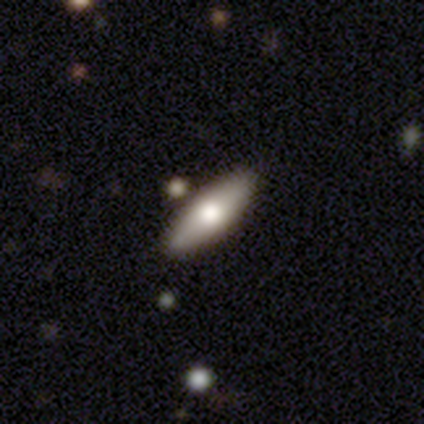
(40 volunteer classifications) Q: Smooth or featured?
A: smooth (65%); runner-up: featured or disk (28%)
Q: How rounded?
A: in between (54%); runner-up: cigar-shaped (46%)
Q: Merging?
A: none (76%); runner-up: minor disturbance (14%)